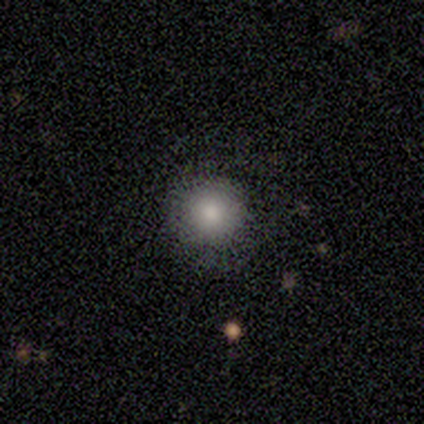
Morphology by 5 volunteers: A smooth galaxy with no disk features (100%) that is round (100%). Merging: none (100%).